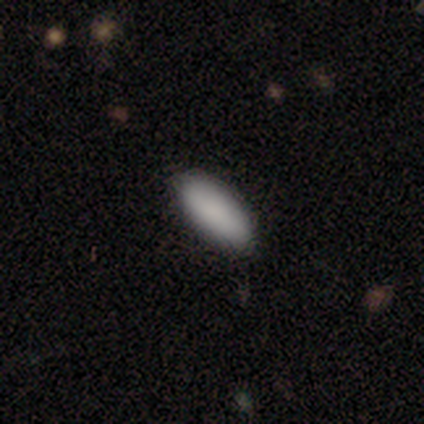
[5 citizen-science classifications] smooth_or_featured: smooth (p=0.80) [alt: star or artifact p=0.20]
how_rounded: in between (p=0.75) [alt: cigar-shaped p=0.25]
merging: none (p=1.00)